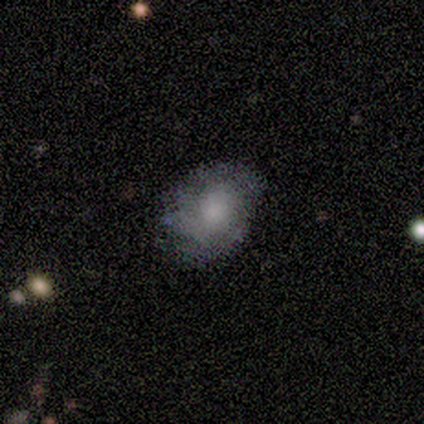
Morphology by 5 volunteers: This appears to be a smooth galaxy with no disk features (40%, tied with star or artifact) that is in between round and cigar-shaped (100%). Merging: none (100%).